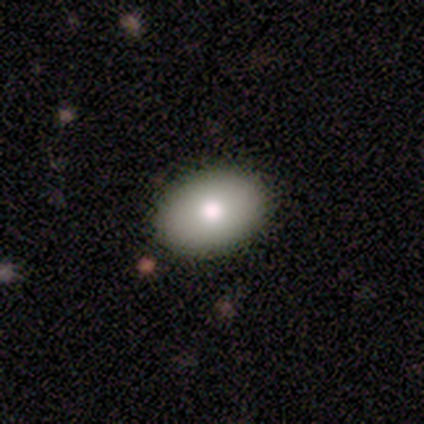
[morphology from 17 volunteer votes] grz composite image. It shows a smooth galaxy with no disk features (76%) that is in between round and cigar-shaped (92%). Merging: none (94%).